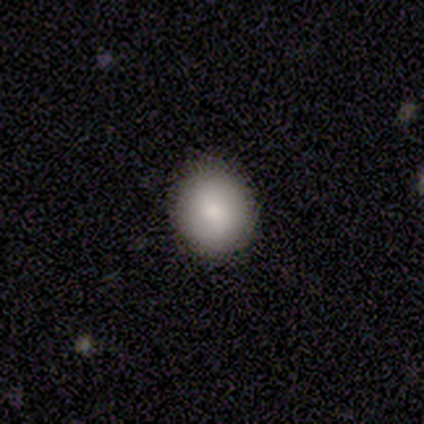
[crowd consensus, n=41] Smooth or featured: smooth — 80% (featured or disk — 10%)
How rounded: round — 79% (in between — 21%)
Merging: none — 89% (minor disturbance — 11%)